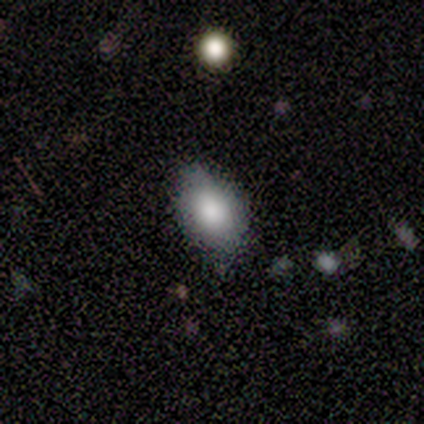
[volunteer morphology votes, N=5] A smooth galaxy with no disk features (80%) that is in between round and cigar-shaped (100%). Merging: minor disturbance (75%).